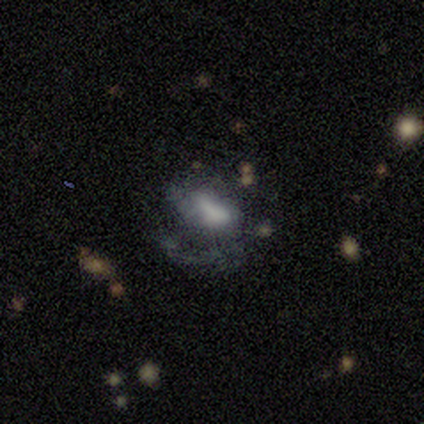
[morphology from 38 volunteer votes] This appears to be a featured or disk galaxy (71%) with no bar (56%), 1 (56%) loose (56%) spiral arms (59%) and a large central bulge (41%). Merging: major disturbance (42%).